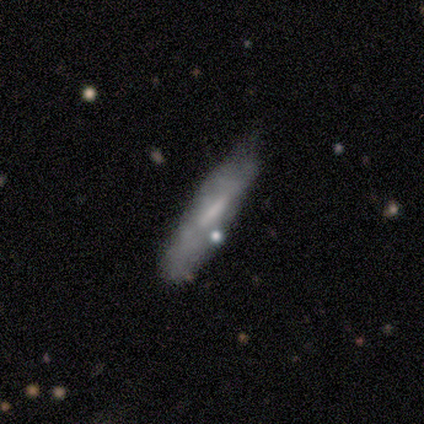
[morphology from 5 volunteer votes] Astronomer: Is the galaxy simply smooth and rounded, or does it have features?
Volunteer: featured or disk — 60% (runner-up: smooth, 40%).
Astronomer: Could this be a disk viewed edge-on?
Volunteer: no — 67%.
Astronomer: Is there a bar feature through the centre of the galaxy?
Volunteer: strong — 50%, tied with no at 50%.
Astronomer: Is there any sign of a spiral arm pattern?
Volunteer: no — 100%.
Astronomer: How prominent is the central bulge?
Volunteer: moderate — 50%, tied with none at 50%.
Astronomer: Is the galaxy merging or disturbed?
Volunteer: minor disturbance — 60% (runner-up: none, 40%).